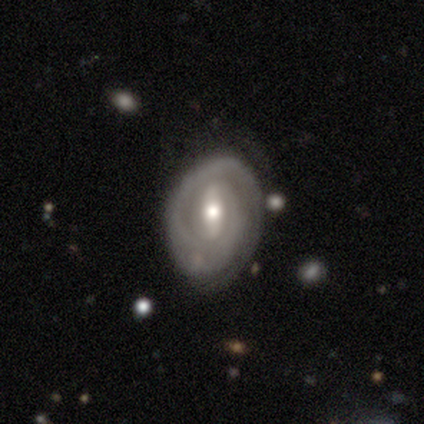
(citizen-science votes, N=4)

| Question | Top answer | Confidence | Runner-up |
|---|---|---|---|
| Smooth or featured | featured or disk | 100% | — |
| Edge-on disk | no | 100% | — |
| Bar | strong | 75% | weak (25%) |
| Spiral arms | yes | 100% | — |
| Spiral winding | tight | 100% | — |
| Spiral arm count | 1 | 75% | can't tell (25%) |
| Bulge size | moderate | 75% | small (25%) |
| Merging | none | 100% | — |